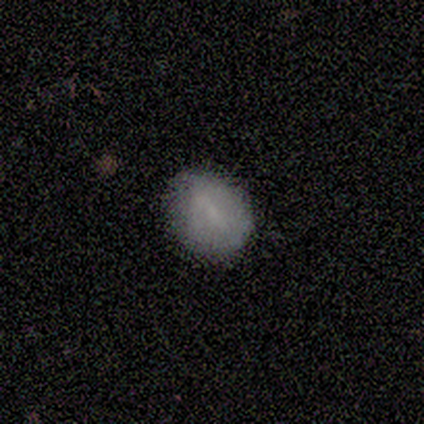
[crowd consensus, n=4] A smooth galaxy with no disk features (100%) that is round (50%, tied with in between). Merging: none (100%).